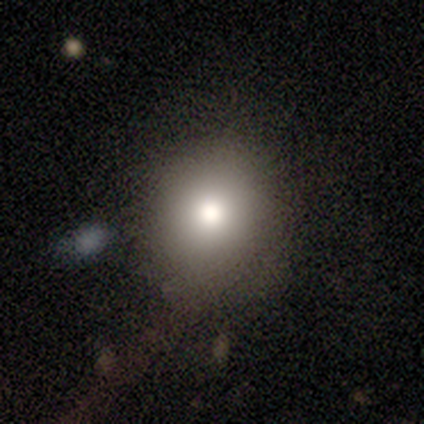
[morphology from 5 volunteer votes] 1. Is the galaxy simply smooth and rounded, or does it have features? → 80% smooth, 20% star or artifact, 0% featured or disk.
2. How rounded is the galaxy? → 100% round, 0% in between, 0% cigar-shaped.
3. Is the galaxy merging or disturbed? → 75% none, 25% minor disturbance, 0% major disturbance, 0% merger.